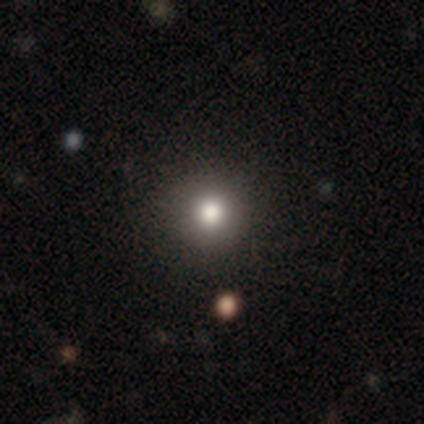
Smooth or featured? 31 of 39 (79%) said smooth. How rounded? 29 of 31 (94%) said round. Merging? 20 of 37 (54%) said none.